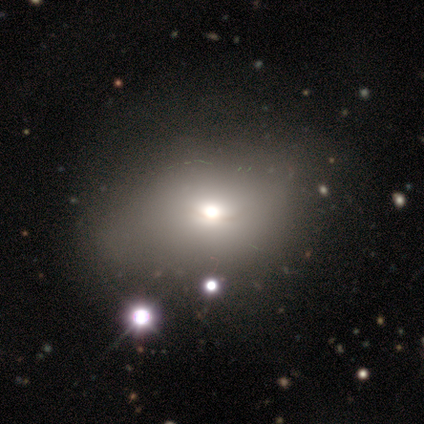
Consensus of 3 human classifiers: Smooth or featured? smooth (67%)
How rounded? in between (100%)
Merging? none (67%)